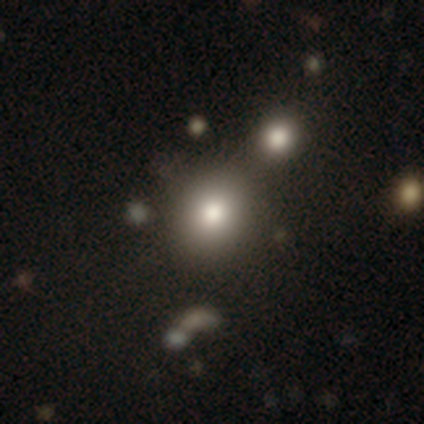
smooth_or_featured: smooth (p=0.79) [alt: star or artifact p=0.13]
how_rounded: round (p=0.65) [alt: in between p=0.35]
merging: none (p=0.65) [alt: merger p=0.18]